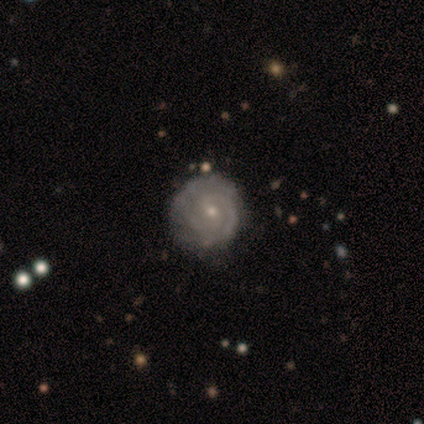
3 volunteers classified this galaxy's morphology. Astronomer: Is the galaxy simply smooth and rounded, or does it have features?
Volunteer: featured or disk — 100%.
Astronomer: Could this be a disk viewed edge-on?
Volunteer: no — 100%.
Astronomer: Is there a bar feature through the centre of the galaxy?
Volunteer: no — 67%.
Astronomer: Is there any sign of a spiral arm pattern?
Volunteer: yes — 100%.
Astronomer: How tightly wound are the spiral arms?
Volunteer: tight — 67%.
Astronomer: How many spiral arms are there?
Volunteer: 2 — 33%, tied with 3 and can't tell at 33%.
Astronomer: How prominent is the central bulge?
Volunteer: small — 67%.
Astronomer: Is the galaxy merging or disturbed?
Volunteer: none — 100%.